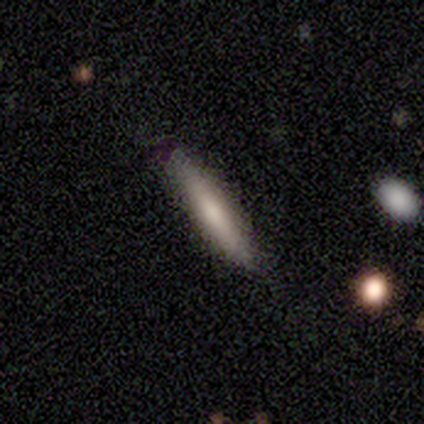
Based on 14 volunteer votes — smooth_or_featured: smooth (p=0.79) [alt: featured or disk p=0.14]
how_rounded: cigar-shaped (p=0.91) [alt: in between p=0.09]
merging: none (p=0.92) [alt: minor disturbance p=0.08]